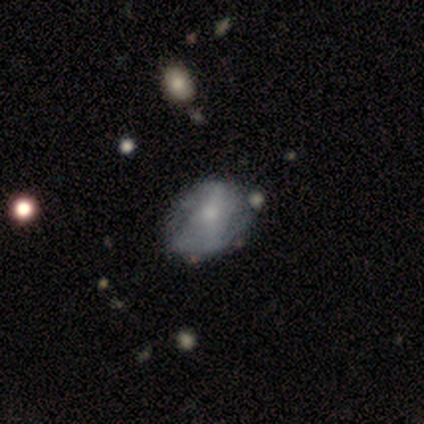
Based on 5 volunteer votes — A featured or disk galaxy (60%) with no bar (100%), no spiral arms (67%) and a small central bulge (67%). Merging: none (60%).